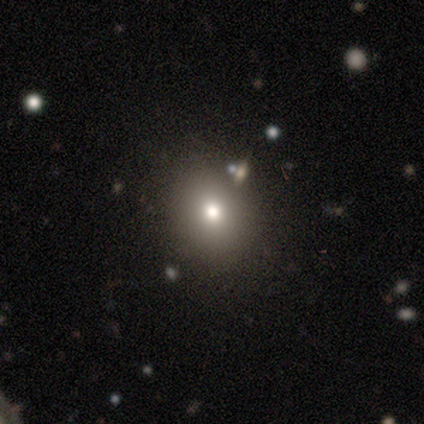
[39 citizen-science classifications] This is likely a smooth galaxy (69%). How rounded: likely round (70%). Merging: clearly none (88%).